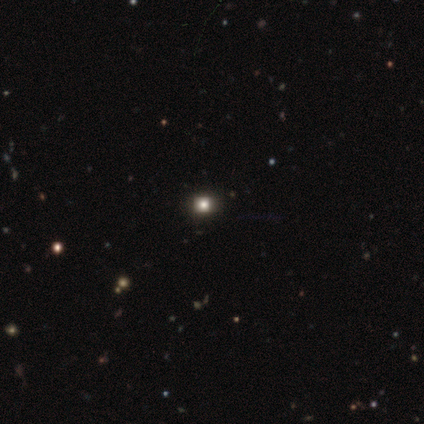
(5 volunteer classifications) A smooth galaxy with no disk features (60%) that is round (67%). Merging: none (75%).